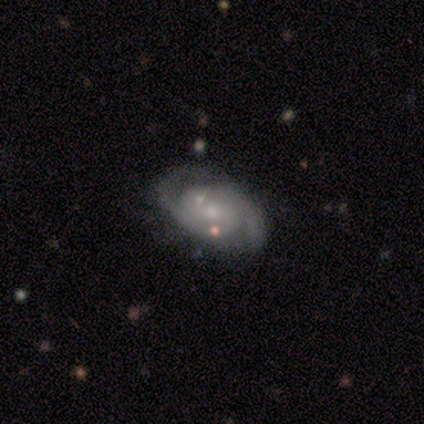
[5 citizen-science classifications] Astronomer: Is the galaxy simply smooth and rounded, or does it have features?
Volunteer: featured or disk — 100%.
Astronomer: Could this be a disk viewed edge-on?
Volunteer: no — 100%.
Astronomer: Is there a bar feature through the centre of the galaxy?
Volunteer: no — 60% (runner-up: weak, 40%).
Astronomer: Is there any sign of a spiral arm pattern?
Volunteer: yes — 100%.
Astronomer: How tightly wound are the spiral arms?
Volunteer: medium — 60% (runner-up: tight, 40%).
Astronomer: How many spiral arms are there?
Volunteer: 2 — 100%.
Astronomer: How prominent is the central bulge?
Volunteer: small — 80%.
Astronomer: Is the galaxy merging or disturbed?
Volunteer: minor disturbance — 60% (runner-up: none, 40%).